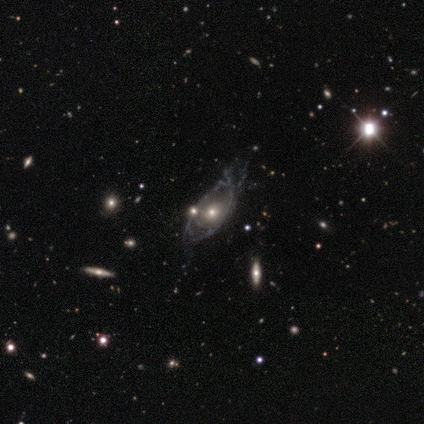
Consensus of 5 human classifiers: Q: Smooth or featured?
A: featured or disk (80%); runner-up: star or artifact (20%)
Q: Edge-on disk?
A: no (100%)
Q: Bar?
A: no (100%)
Q: Spiral arms?
A: yes (50%); tied with: no (50%)
Q: Spiral winding?
A: tight (100%)
Q: Spiral arm count?
A: can't tell (100%)
Q: Bulge size?
A: moderate (75%); runner-up: small (25%)
Q: Merging?
A: minor disturbance (50%); runner-up: none (25%)